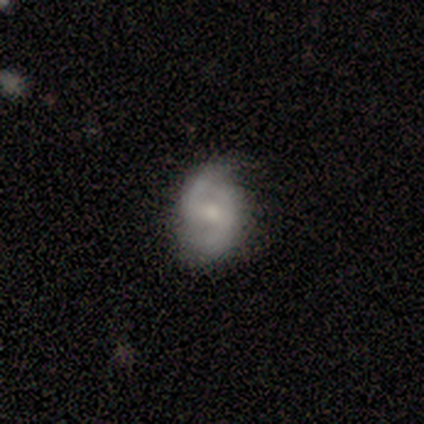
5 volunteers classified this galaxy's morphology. type=featured or disk (80%); edge-on=no (100%); bar=weak (75%); spiral arms=yes (100%); winding=tight (50%, tied with loose); arm count=2 (100%); bulge=moderate (50%); merging=none (80%).